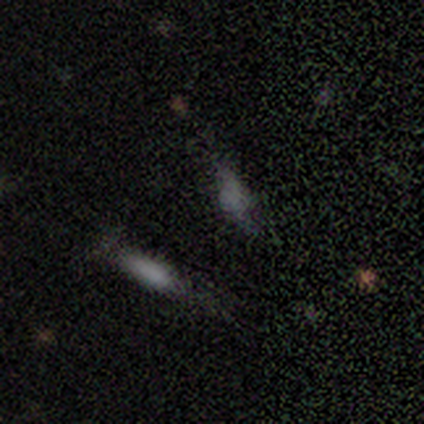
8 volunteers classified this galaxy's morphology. A smooth galaxy with no disk features (75%) that is in between round and cigar-shaped (67%). Merging: none (33%, tied with major disturbance).